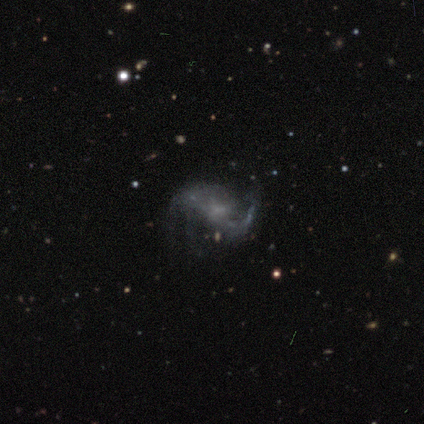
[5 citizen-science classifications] featured or disk 60%, smooth 20%, star or artifact 20%. Down the decision tree: edge-on disk — no (100%); bar — no (67%); spiral arms — yes (67%); spiral arm count — 2 (100%); spiral winding — loose (100%); bulge size — none (67%); merging — minor disturbance (50%, tied with major disturbance).